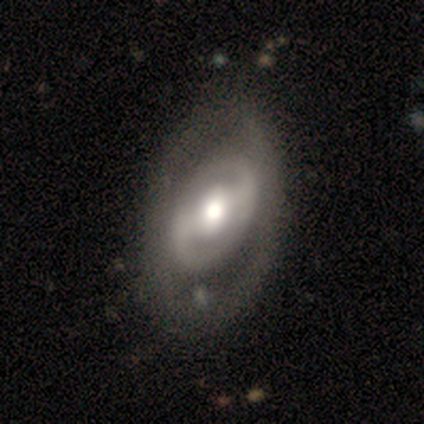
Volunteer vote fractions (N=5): This appears to be a featured or disk galaxy (80%) with a strong bar (75%), 2 (100%) medium (100%) spiral arms (50%, tied with no) and a moderate central bulge (100%). Merging: none (80%).